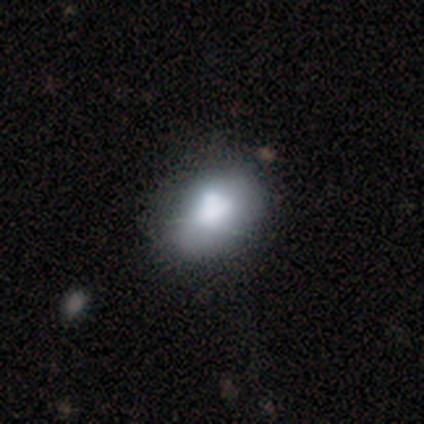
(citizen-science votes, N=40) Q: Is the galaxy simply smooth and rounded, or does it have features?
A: smooth — 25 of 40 (62%).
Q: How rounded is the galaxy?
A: in between — 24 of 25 (96%).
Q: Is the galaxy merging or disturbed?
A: none — 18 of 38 (47%).